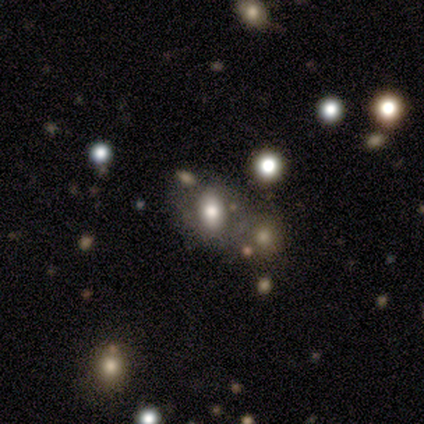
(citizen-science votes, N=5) This appears to be a smooth galaxy with no disk features (60%) that is in between round and cigar-shaped (100%). Merging: none (50%, tied with minor disturbance).